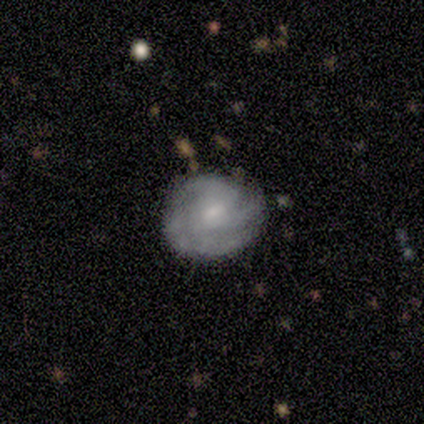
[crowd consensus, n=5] Q: Smooth or featured?
A: featured or disk (100%)
Q: Edge-on disk?
A: no (100%)
Q: Bar?
A: weak (60%); runner-up: no (40%)
Q: Spiral arms?
A: yes (100%)
Q: Spiral winding?
A: medium (80%); runner-up: tight (20%)
Q: Spiral arm count?
A: 3 (60%); runner-up: 4 (40%)
Q: Bulge size?
A: moderate (60%); runner-up: small (40%)
Q: Merging?
A: none (40%); tied with: minor disturbance (40%)